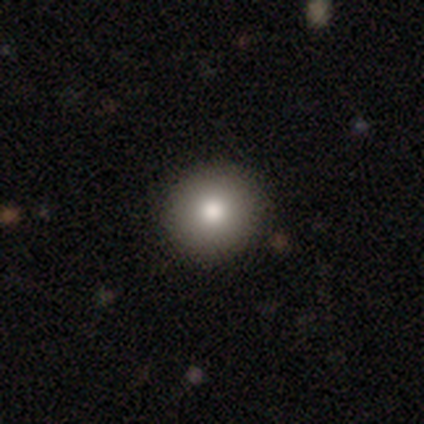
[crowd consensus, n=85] Volunteers were most divided on "how rounded": round: 86%, in between: 14%, cigar-shaped: 0%. More confident: merging — none (92%); smooth or featured — smooth (85%).